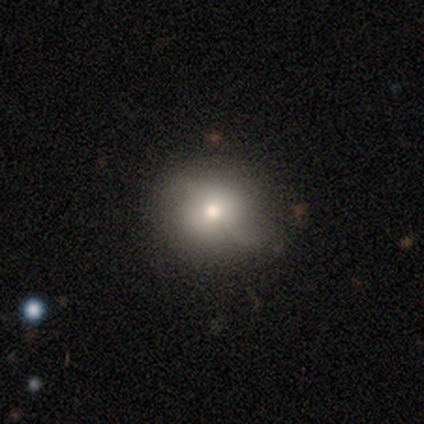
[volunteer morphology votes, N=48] A smooth galaxy with no disk features (67%) that is round (84%). Merging: none (85%).